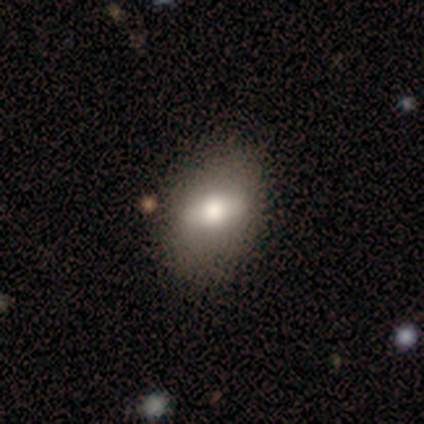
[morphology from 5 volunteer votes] smooth-or-featured: smooth: 60% | featured or disk: 40% | star or artifact: 0%
  how-rounded: in between: 67% | round: 33% | cigar-shaped: 0%
  merging: none: 100% | minor disturbance: 0% | major disturbance: 0% | merger: 0%